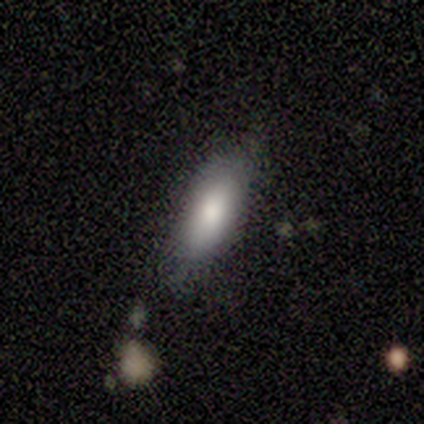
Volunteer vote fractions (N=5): Smooth or featured: smooth — 100%
How rounded: in between — 60% (cigar-shaped — 40%)
Merging: none — 80% (minor disturbance — 20%)